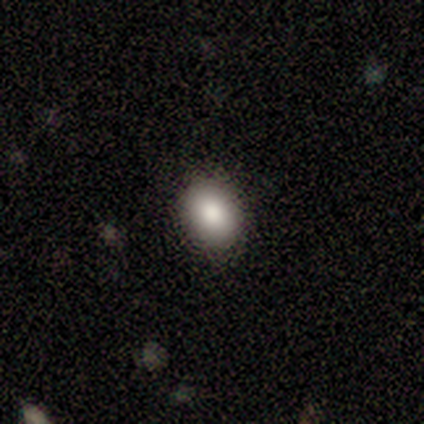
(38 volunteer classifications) smooth 87%, featured or disk 13%, star or artifact 0%. Down the decision tree: how rounded — in between (61%); merging — none (87%).